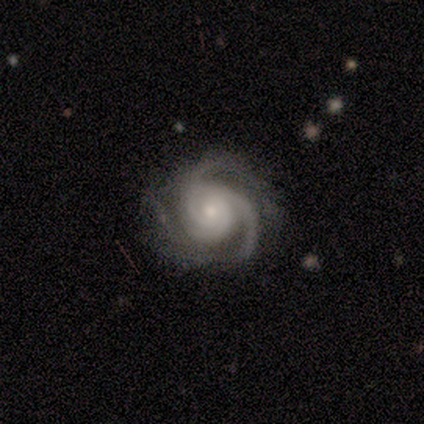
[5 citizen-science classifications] Q: Smooth or featured?
A: featured or disk (100%)
Q: Edge-on disk?
A: no (100%)
Q: Bar?
A: no (80%); runner-up: weak (20%)
Q: Spiral arms?
A: yes (100%)
Q: Spiral winding?
A: medium (60%); runner-up: tight (20%)
Q: Spiral arm count?
A: 3 (60%); runner-up: 2 (20%)
Q: Bulge size?
A: moderate (40%); tied with: small (40%)
Q: Merging?
A: none (80%); runner-up: major disturbance (20%)